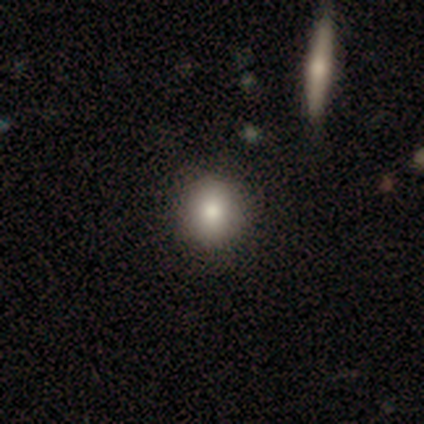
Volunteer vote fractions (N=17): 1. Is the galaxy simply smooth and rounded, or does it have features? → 76% smooth, 18% featured or disk, 6% star or artifact.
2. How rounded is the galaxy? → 54% round, 38% in between, 8% cigar-shaped.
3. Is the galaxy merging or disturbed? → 69% none, 19% major disturbance, 6% minor disturbance, 6% merger.